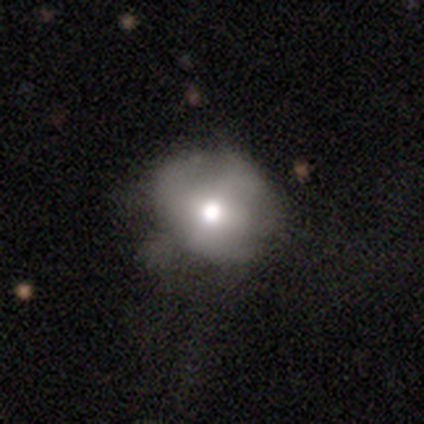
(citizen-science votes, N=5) This is likely a smooth galaxy (60%). How rounded: clearly round (100%). Merging: likely none (60%).